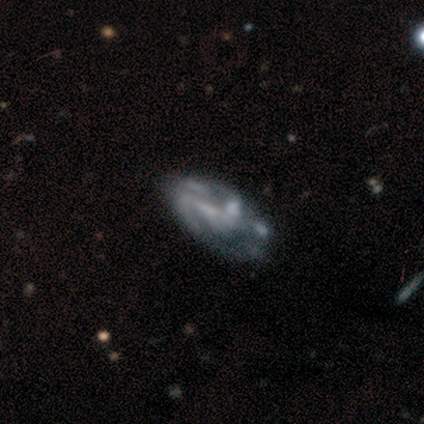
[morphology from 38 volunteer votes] featured or disk 84%, star or artifact 13%, smooth 3%. Down the decision tree: edge-on disk — no (100%); bar — no (50%); spiral arms — yes (66%); spiral arm count — can't tell (43%); spiral winding — medium (52%); bulge size — none (66%); merging — none (27%).